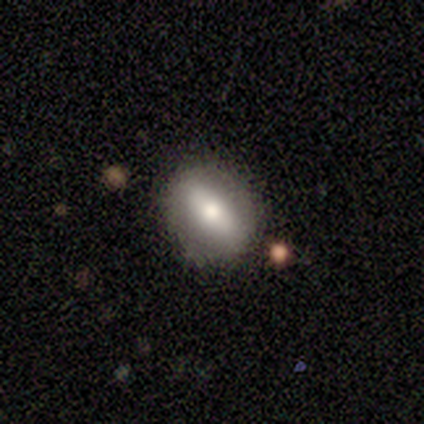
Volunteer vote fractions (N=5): Smooth or featured?
  - smooth: 80% *
  - featured or disk: 20%
  - star or artifact: 0%
How rounded?
  - in between: 75% *
  - round: 25%
  - cigar-shaped: 0%
Merging?
  - none: 80% *
  - minor disturbance: 20%
  - major disturbance: 0%
  - merger: 0%